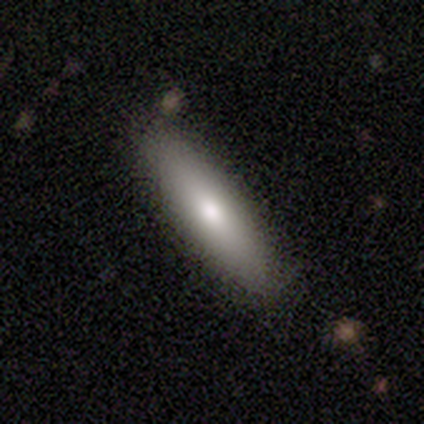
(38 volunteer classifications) This is likely a smooth galaxy (76%). How rounded: likely cigar-shaped (69%). Merging: clearly none (83%).